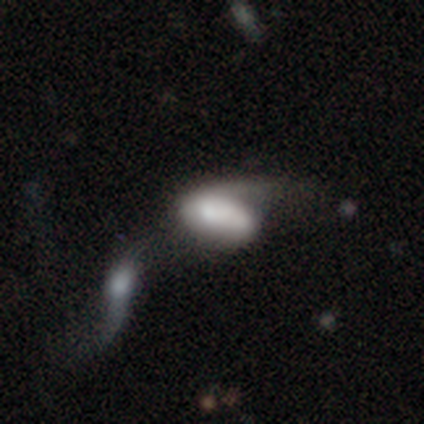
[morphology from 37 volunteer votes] A smooth galaxy with no disk features (65%) that is in between round and cigar-shaped (100%).

Vote fractions:
- Smooth or featured? smooth: 65% / featured or disk: 32% / star or artifact: 3%
- How rounded? in between: 100% / round: 0% / cigar-shaped: 0%
- Merging? merger: 50% / major disturbance: 25% / minor disturbance: 19% / none: 6%